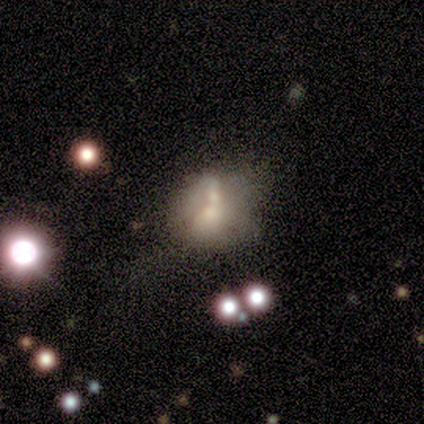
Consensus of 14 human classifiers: Smooth or featured: smooth — 57% (featured or disk — 43%)
How rounded: round — 75% (in between — 25%)
Merging: merger — 50% (none — 36%)